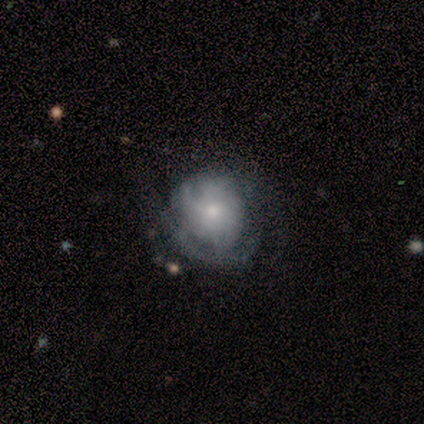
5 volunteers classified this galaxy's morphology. Q: Smooth or featured?
A: featured or disk (80%); runner-up: star or artifact (20%)
Q: Edge-on disk?
A: no (100%)
Q: Bar?
A: no (100%)
Q: Spiral arms?
A: yes (50%); tied with: no (50%)
Q: Spiral winding?
A: tight (50%); tied with: loose (50%)
Q: Spiral arm count?
A: 2 (50%); tied with: can't tell (50%)
Q: Bulge size?
A: small (75%); runner-up: large (25%)
Q: Merging?
A: minor disturbance (75%); runner-up: none (25%)